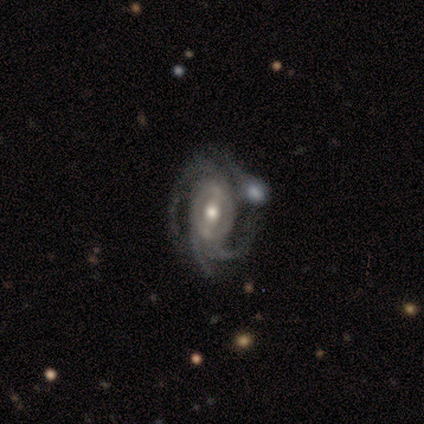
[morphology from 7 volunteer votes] A featured or disk galaxy (100%) with a strong bar (57%), 3 (71%) medium (57%) spiral arms (100%) and a moderate central bulge (71%). Merging: none (57%).